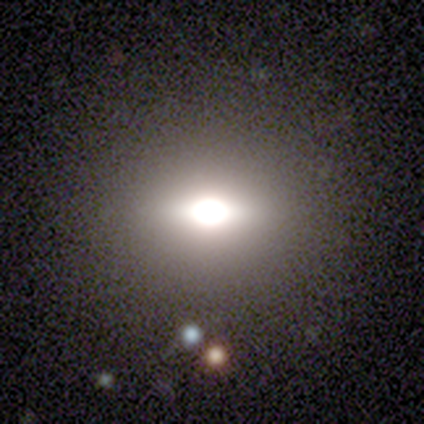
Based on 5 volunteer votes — Smooth or featured?
  - smooth: 40% * (tied)
  - star or artifact: 40% * (tied)
  - featured or disk: 20%
How rounded?
  - round: 100% *
  - in between: 0%
  - cigar-shaped: 0%
Merging?
  - none: 67% *
  - major disturbance: 33%
  - minor disturbance: 0%
  - merger: 0%